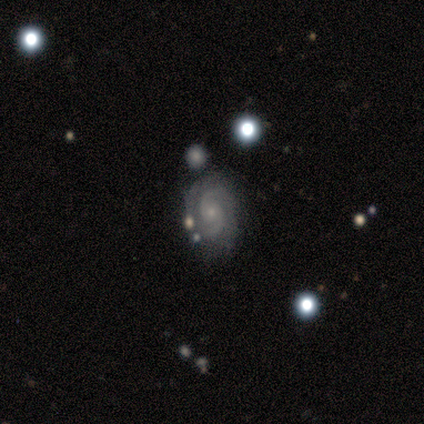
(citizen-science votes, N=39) Q: Smooth or featured?
A: featured or disk (95%); runner-up: smooth (3%)
Q: Edge-on disk?
A: no (97%); runner-up: yes (3%)
Q: Bar?
A: no (83%); runner-up: weak (17%)
Q: Spiral arms?
A: yes (100%)
Q: Spiral winding?
A: tight (61%); runner-up: medium (33%)
Q: Spiral arm count?
A: 2 (83%); runner-up: can't tell (17%)
Q: Bulge size?
A: small (72%); runner-up: moderate (19%)
Q: Merging?
A: none (68%); runner-up: minor disturbance (16%)